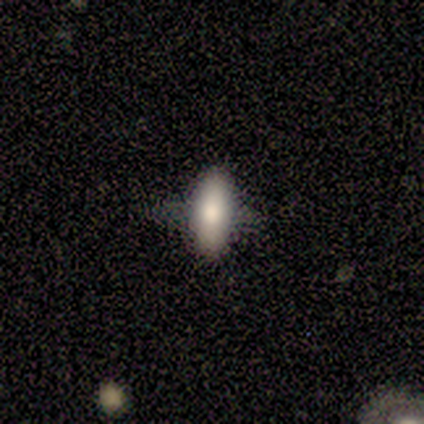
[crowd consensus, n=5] Q: Smooth or featured?
A: smooth (80%); runner-up: featured or disk (20%)
Q: How rounded?
A: in between (50%); tied with: cigar-shaped (50%)
Q: Merging?
A: none (40%); tied with: major disturbance (40%)